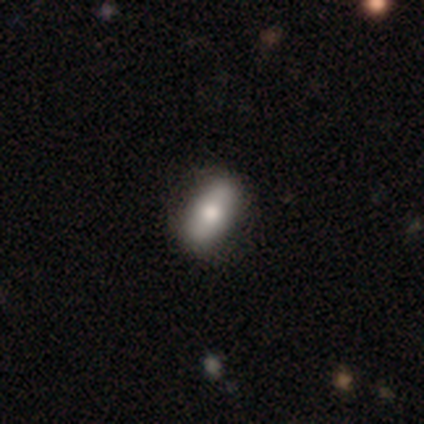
A smooth galaxy with no disk features (100%) that is in between round and cigar-shaped (100%). Merging: none (100%).